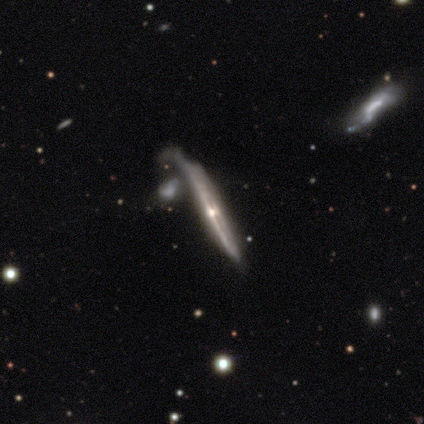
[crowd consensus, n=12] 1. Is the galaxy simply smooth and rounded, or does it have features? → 83% featured or disk, 8% smooth, 8% star or artifact.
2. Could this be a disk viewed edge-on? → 100% yes, 0% no.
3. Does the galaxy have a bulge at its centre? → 80% rounded, 20% none, 0% boxy.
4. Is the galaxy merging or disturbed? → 36% none, 27% minor disturbance, 27% merger, 9% major disturbance.